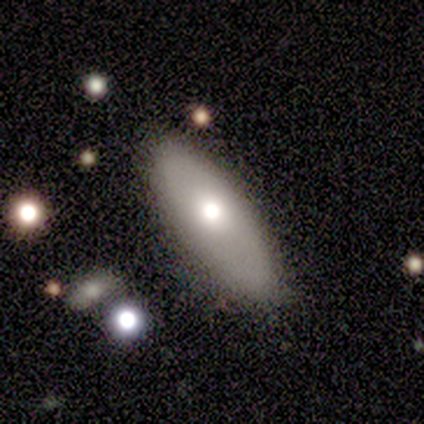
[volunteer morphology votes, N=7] smooth-or-featured: smooth: 86% | featured or disk: 14% | star or artifact: 0%
  how-rounded: in between: 67% | cigar-shaped: 33% | round: 0%
  merging: none: 86% | minor disturbance: 14% | major disturbance: 0% | merger: 0%